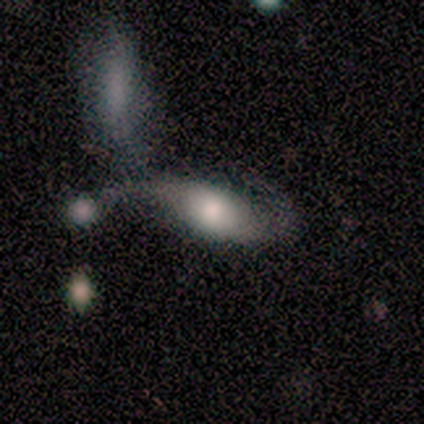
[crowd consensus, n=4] Morphology: type=smooth (50%, tied with featured or disk); roundness=in between (100%); merging=none (50%).